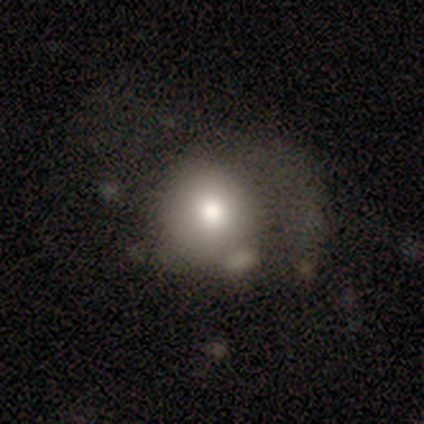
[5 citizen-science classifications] smooth-or-featured: smooth: 100% | featured or disk: 0% | star or artifact: 0%
  how-rounded: round: 60% | in between: 40% | cigar-shaped: 0%
  merging: major disturbance: 80% | minor disturbance: 20% | none: 0% | merger: 0%